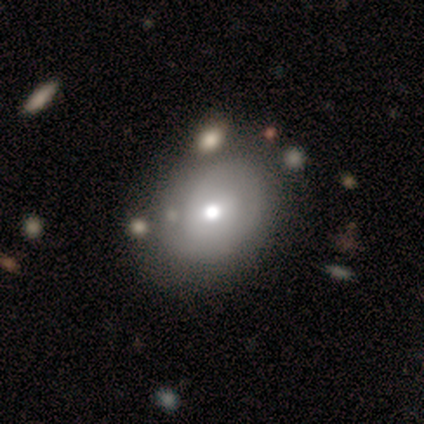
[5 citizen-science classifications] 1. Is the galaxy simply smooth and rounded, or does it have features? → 60% smooth, 40% featured or disk, 0% star or artifact.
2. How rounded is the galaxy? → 67% round, 33% in between, 0% cigar-shaped.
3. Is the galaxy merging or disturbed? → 60% none, 40% minor disturbance, 0% major disturbance, 0% merger.